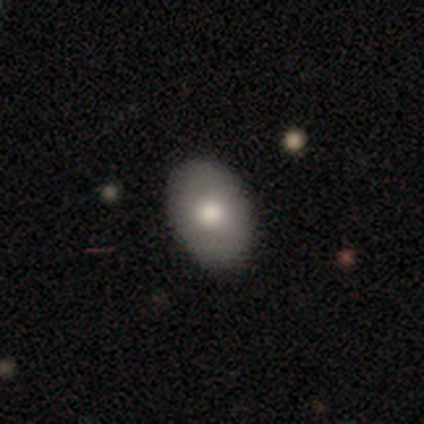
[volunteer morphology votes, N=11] type=smooth (64%); roundness=in between (86%); merging=none (90%).